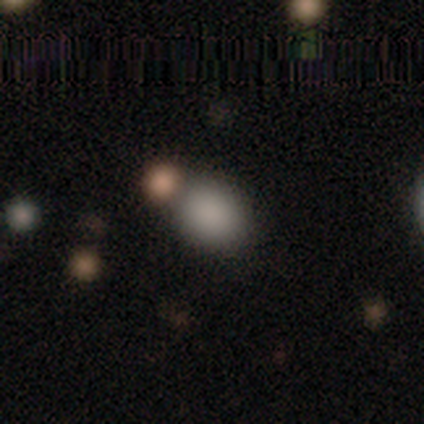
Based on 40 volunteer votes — Morphology: type=smooth (88%); roundness=in between (54%); merging=none (65%).